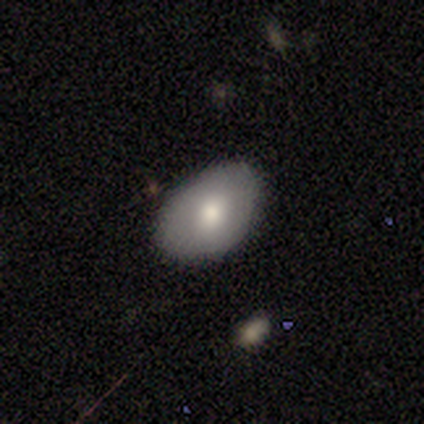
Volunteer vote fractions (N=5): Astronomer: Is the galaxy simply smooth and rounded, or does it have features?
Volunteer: smooth — 100%.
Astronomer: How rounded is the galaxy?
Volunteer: in between — 80%.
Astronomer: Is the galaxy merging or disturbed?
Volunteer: none — 100%.